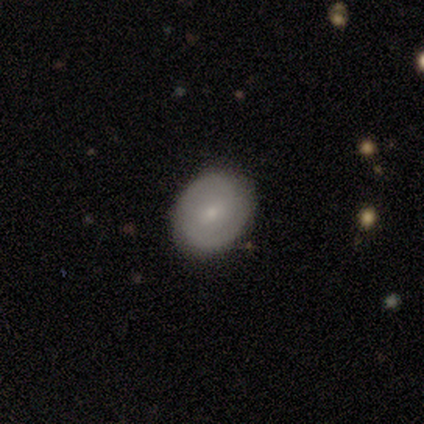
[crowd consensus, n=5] smooth_or_featured: featured or disk (p=0.80) [alt: smooth p=0.20]
disk_edge_on: no (p=0.75) [alt: yes p=0.25]
bar: weak (p=0.67) [alt: no p=0.33]
has_spiral_arms: yes (p=0.67) [alt: no p=0.33]
spiral_winding: tight (p=1.00)
spiral_arm_count: 1 (p=0.50) [tied with: can't tell p=0.50]
bulge_size: moderate (p=0.67) [alt: small p=0.33]
merging: none (p=1.00)